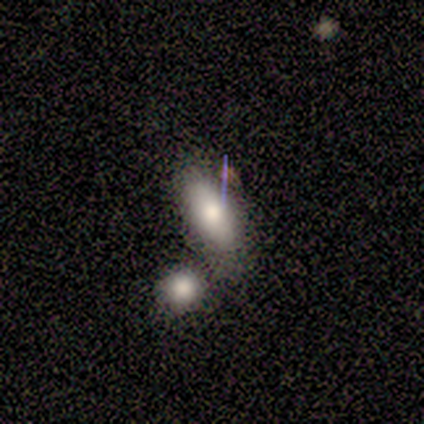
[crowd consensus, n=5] Smooth or featured: smooth — 100%
How rounded: in between — 80% (cigar-shaped — 20%)
Merging: merger — 80% (minor disturbance — 20%)